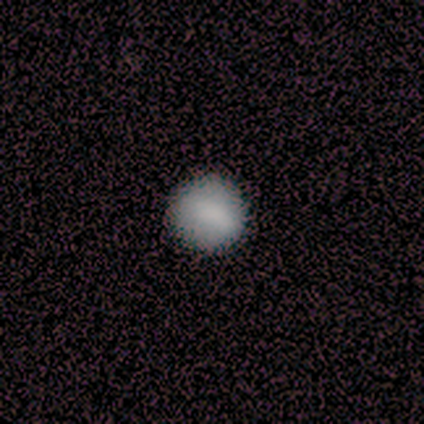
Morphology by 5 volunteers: A smooth galaxy with no disk features (80%) that is round (75%).

Vote fractions:
- Smooth or featured? smooth: 80% / featured or disk: 20% / star or artifact: 0%
- How rounded? round: 75% / in between: 25% / cigar-shaped: 0%
- Merging? none: 80% / minor disturbance: 20% / major disturbance: 0% / merger: 0%